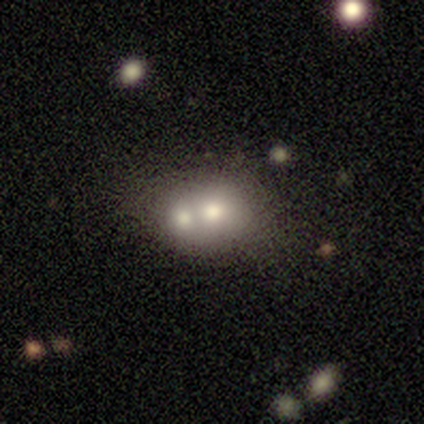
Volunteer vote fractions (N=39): smooth-or-featured: smooth: 54% | featured or disk: 26% | star or artifact: 21%
  how-rounded: in between: 86% | round: 14% | cigar-shaped: 0%
  merging: merger: 68% | none: 26% | minor disturbance: 3% | major disturbance: 3%